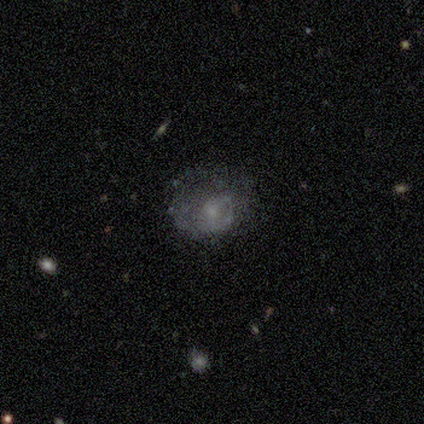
Smooth or featured? featured or disk (50%)
Edge-on disk? no (100%)
Bar? no (84%)
Spiral arms? yes (53%)
Spiral winding? tight (60%)
Spiral arm count? 1 (80%)
Bulge size? small (63%)
Merging? none (61%)